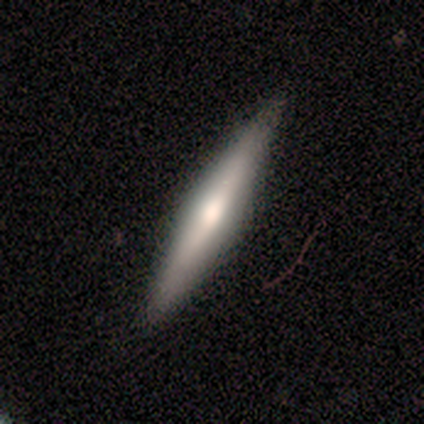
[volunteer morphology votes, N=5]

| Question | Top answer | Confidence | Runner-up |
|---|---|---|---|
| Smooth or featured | featured or disk | 60% | smooth (40%) |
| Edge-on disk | yes | 100% | — |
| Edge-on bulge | rounded | 67% | boxy (33%) |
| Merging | none | 100% | — |